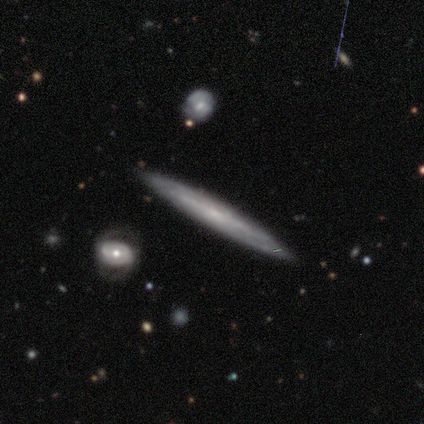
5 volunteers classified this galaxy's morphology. A featured or disk galaxy (100%) viewed edge-on (60%) with no central bulge (100%).

Vote fractions:
- Smooth or featured? featured or disk: 100% / smooth: 0% / star or artifact: 0%
- Edge-on disk? yes: 60% / no: 40%
- Edge-on bulge? none: 100% / boxy: 0% / rounded: 0%
- Merging? none: 100% / minor disturbance: 0% / major disturbance: 0% / merger: 0%